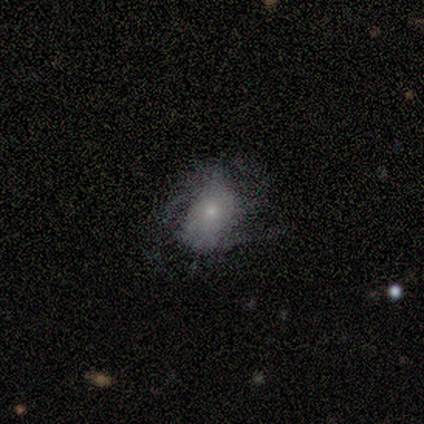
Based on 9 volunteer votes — A featured or disk galaxy (56%) with no bar (60%), tight (67%) spiral arms (60%) and a small central bulge (60%). Merging: minor disturbance (78%).